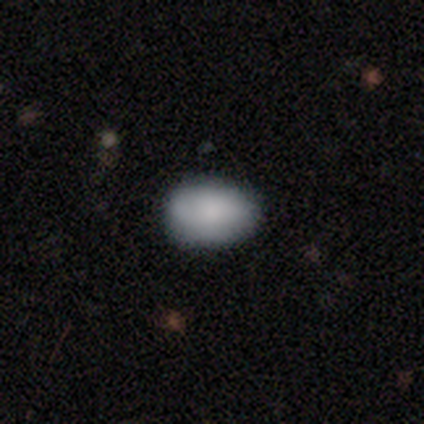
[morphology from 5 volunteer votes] This appears to be a smooth galaxy with no disk features (100%) that is in between round and cigar-shaped (100%). Merging: none (60%).